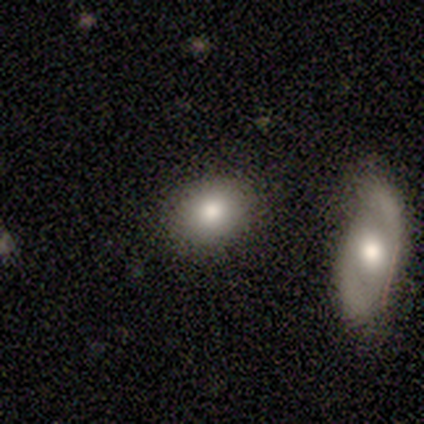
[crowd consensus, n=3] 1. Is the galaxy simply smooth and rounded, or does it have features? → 67% smooth, 33% featured or disk, 0% star or artifact.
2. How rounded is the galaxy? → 100% in between, 0% round, 0% cigar-shaped.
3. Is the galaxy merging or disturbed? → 67% none, 33% merger, 0% minor disturbance, 0% major disturbance.